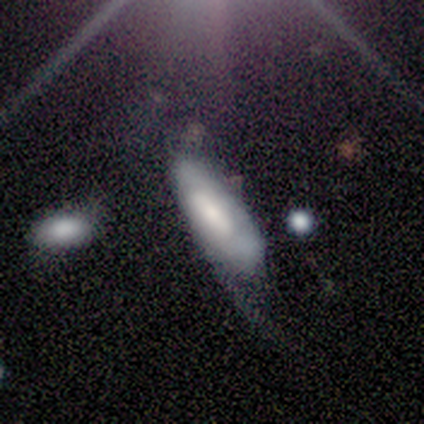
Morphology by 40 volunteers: smooth-or-featured: smooth: 48% (tied) | featured or disk: 48% (tied) | star or artifact: 5%
  how-rounded: in between: 89% | cigar-shaped: 11% | round: 0%
  merging: major disturbance: 45% | minor disturbance: 32% | none: 16% | merger: 8%